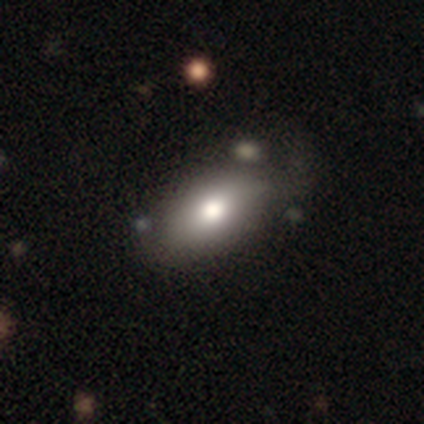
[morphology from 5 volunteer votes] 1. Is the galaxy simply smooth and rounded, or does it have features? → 80% smooth, 20% star or artifact, 0% featured or disk.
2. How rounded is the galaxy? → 75% in between, 25% round, 0% cigar-shaped.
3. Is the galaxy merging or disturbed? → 50% none, 25% minor disturbance, 25% major disturbance, 0% merger.